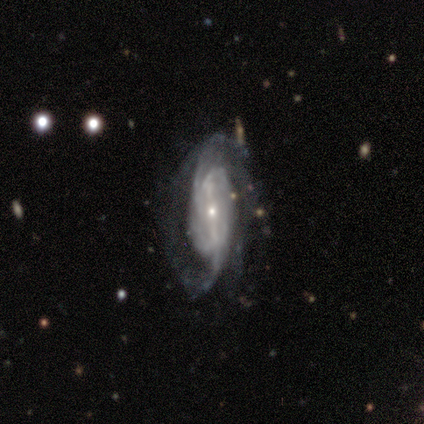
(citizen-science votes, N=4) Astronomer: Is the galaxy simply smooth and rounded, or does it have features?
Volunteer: featured or disk — 100%.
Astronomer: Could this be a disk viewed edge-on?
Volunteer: no — 100%.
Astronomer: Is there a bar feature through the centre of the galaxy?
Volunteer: strong — 75%.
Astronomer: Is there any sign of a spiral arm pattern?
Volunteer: yes — 100%.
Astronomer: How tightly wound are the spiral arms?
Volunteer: tight — 50%.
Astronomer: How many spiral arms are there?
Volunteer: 2 — 75%.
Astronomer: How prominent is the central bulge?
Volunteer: small — 75%.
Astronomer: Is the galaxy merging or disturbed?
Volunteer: none — 75%.